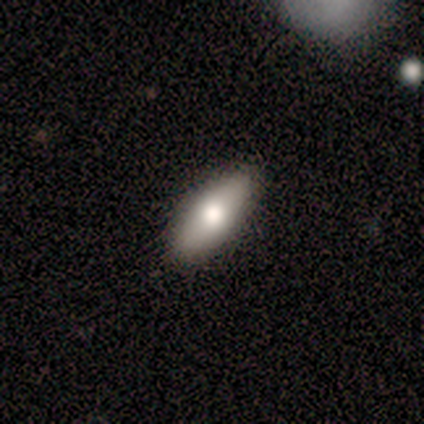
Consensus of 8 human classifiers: Morphology: type=smooth (62%); roundness=in between (60%); merging=none (88%).